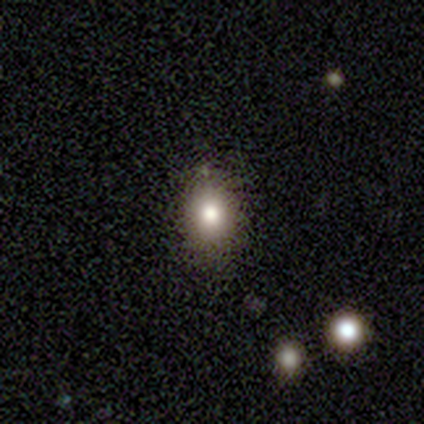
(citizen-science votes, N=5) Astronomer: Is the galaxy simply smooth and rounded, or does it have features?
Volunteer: smooth — 80%.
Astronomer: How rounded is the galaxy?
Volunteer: in between — 100%.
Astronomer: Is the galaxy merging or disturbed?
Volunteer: none — 100%.